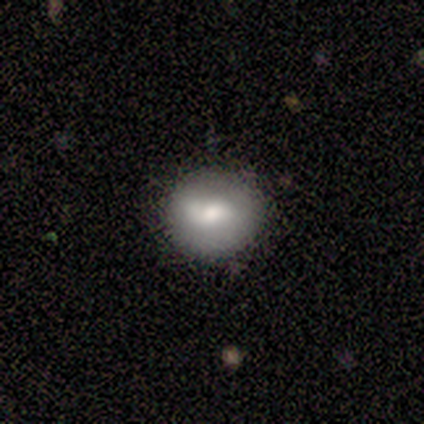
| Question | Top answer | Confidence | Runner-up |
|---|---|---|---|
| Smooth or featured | smooth | 100% | — |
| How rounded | round | 100% | — |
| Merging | none | 50% | tied: minor disturbance (50%) |